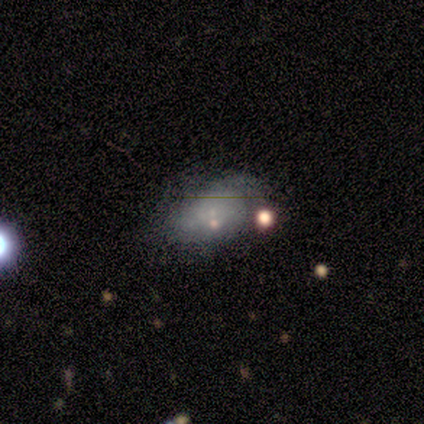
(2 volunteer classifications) A smooth galaxy with no disk features (50%, tied with star or artifact) that is in between round and cigar-shaped (100%).

Vote fractions:
- Smooth or featured? smooth: 50% (tied) / star or artifact: 50% (tied) / featured or disk: 0%
- How rounded? in between: 100% / round: 0% / cigar-shaped: 0%
- Merging? none: 100% / minor disturbance: 0% / major disturbance: 0% / merger: 0%